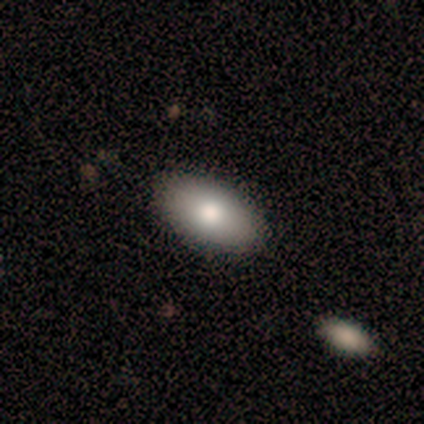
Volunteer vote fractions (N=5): A smooth galaxy with no disk features (60%) that is in between round and cigar-shaped (100%). Merging: none (80%).